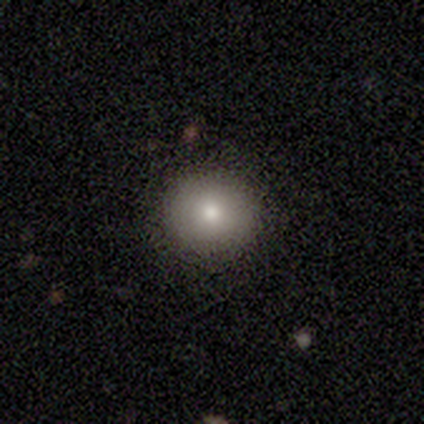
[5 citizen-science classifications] A smooth galaxy with no disk features (40%, tied with star or artifact) that is round (100%).

Vote fractions:
- Smooth or featured? smooth: 40% (tied) / star or artifact: 40% (tied) / featured or disk: 20%
- How rounded? round: 100% / in between: 0% / cigar-shaped: 0%
- Merging? none: 100% / minor disturbance: 0% / major disturbance: 0% / merger: 0%